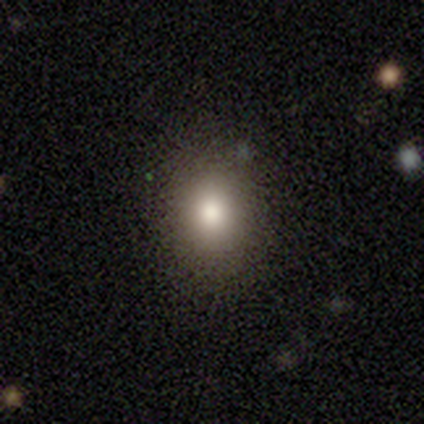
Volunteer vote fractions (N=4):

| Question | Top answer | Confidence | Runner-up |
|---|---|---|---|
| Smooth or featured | smooth | 100% | — |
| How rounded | in between | 100% | — |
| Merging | none | 100% | — |